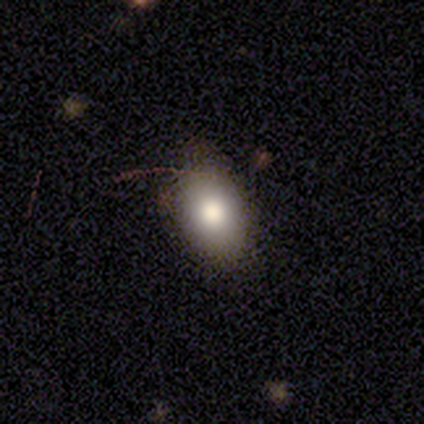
Q: Smooth or featured?
A: smooth (75%); runner-up: star or artifact (15%)
Q: How rounded?
A: in between (85%); runner-up: round (15%)
Q: Merging?
A: none (76%); runner-up: minor disturbance (21%)